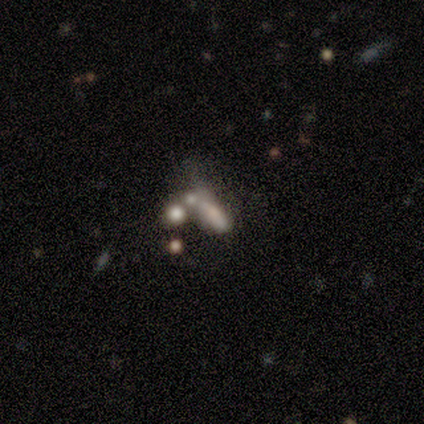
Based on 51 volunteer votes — smooth 49%, featured or disk 39%, star or artifact 12%. Down the decision tree: how rounded — in between (68%); merging — merger (56%).